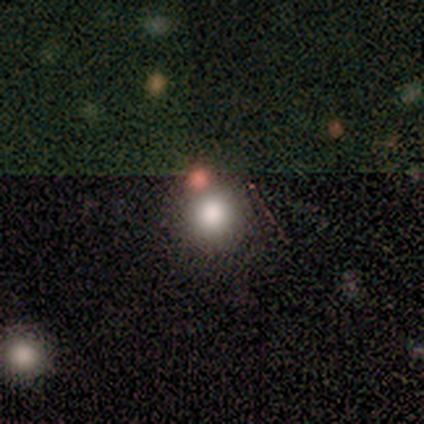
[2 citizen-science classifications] Smooth or featured?
  - smooth: 100% *
  - featured or disk: 0%
  - star or artifact: 0%
How rounded?
  - round: 50% * (tied)
  - in between: 50% * (tied)
  - cigar-shaped: 0%
Merging?
  - none: 100% *
  - minor disturbance: 0%
  - major disturbance: 0%
  - merger: 0%